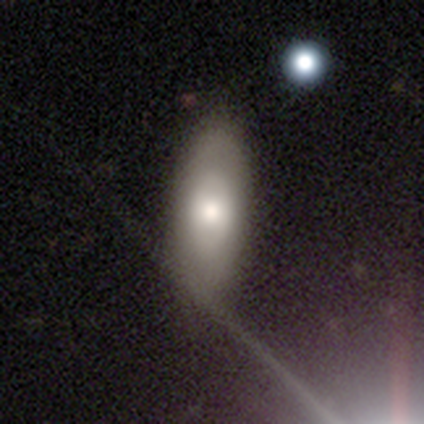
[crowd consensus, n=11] smooth 64%, featured or disk 36%, star or artifact 0%. Down the decision tree: how rounded — in between (71%); merging — none (91%).